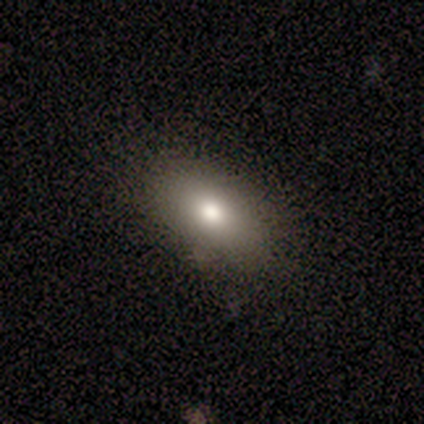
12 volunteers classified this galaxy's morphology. Smooth or featured? smooth (67%)
How rounded? in between (88%)
Merging? none (100%)